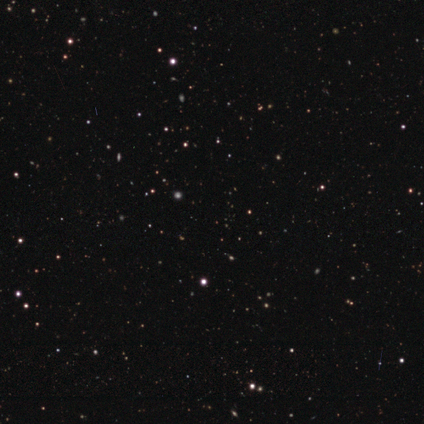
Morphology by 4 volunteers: Smooth or featured?
  - star or artifact: 75% *
  - smooth: 25%
  - featured or disk: 0%